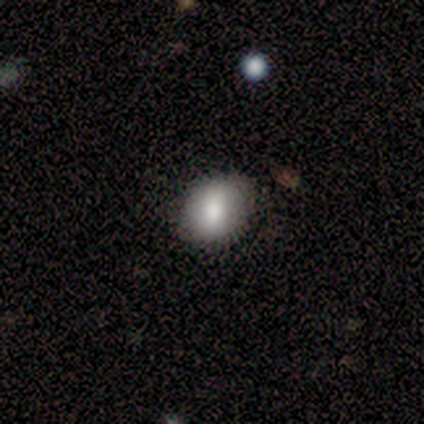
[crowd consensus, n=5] smooth_or_featured: smooth (p=0.60) [alt: featured or disk p=0.40]
how_rounded: in between (p=0.67) [alt: round p=0.33]
merging: none (p=0.80) [alt: minor disturbance p=0.20]